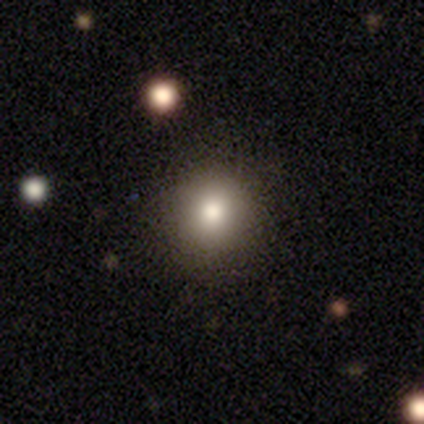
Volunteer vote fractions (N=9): Smooth or featured? 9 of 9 (100%) said smooth. How rounded? 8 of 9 (89%) said round. Merging? 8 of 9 (89%) said none.